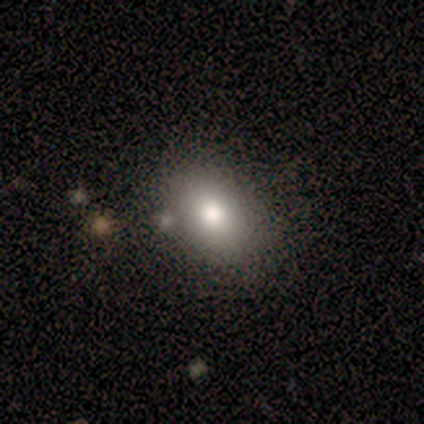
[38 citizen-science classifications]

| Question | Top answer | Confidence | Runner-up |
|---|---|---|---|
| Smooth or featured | smooth | 66% | featured or disk (18%) |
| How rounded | in between | 80% | round (20%) |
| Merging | none | 72% | minor disturbance (22%) |